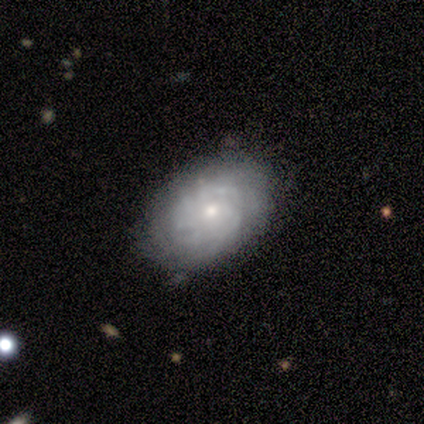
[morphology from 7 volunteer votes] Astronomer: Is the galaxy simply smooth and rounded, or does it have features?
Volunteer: featured or disk — 100%.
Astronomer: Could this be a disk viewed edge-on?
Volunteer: no — 100%.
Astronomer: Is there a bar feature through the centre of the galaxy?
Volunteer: no — 71%.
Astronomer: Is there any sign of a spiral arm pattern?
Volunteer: yes — 86%.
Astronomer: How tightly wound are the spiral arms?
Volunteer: tight — 67%.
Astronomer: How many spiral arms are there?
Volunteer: can't tell — 67%.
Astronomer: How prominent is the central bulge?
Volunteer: small — 71%.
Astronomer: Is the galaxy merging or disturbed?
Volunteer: none — 57% (runner-up: minor disturbance, 43%).